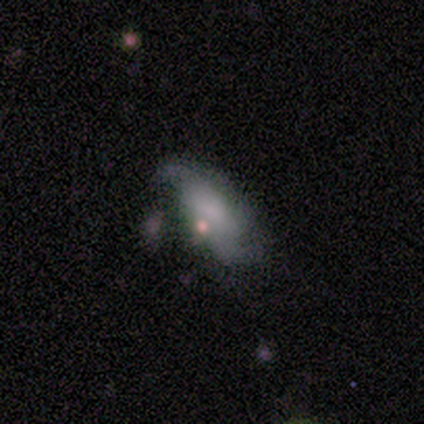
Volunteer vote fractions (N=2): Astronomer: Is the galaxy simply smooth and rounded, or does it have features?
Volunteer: smooth — 50%, tied with featured or disk at 50%.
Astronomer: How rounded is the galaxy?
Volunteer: in between — 100%.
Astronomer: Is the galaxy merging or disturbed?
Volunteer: minor disturbance — 50%, tied with major disturbance at 50%.